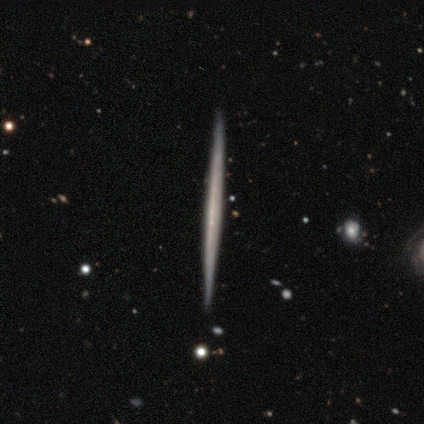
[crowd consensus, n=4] featured or disk 75%, smooth 25%, star or artifact 0%. Down the decision tree: edge-on disk — yes (100%); edge-on bulge — none (100%); merging — none (100%).